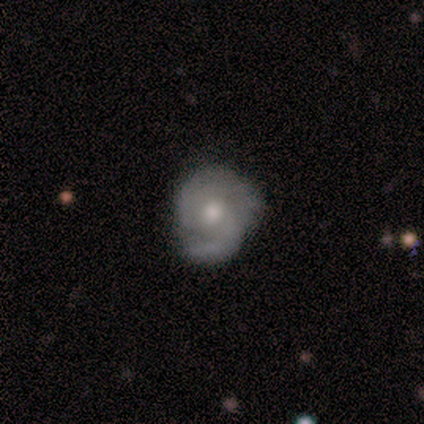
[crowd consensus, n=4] Smooth or featured?
  - featured or disk: 75% *
  - smooth: 25%
  - star or artifact: 0%
Edge-on disk?
  - no: 100% *
  - yes: 0%
Bar?
  - no: 67% *
  - weak: 33%
  - strong: 0%
Spiral arms?
  - no: 67% *
  - yes: 33%
Bulge size?
  - moderate: 33% * (tied)
  - small: 33% * (tied)
  - none: 33% * (tied)
  - dominant: 0%
  - large: 0%
Merging?
  - none: 50% * (tied)
  - major disturbance: 50% * (tied)
  - minor disturbance: 0%
  - merger: 0%